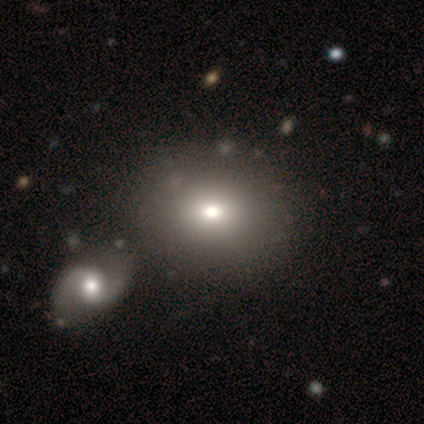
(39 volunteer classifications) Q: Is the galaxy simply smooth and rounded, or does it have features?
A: smooth — 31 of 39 (79%).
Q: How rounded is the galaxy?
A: in between — 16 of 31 (52%).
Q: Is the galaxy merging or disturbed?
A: none — 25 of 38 (66%).